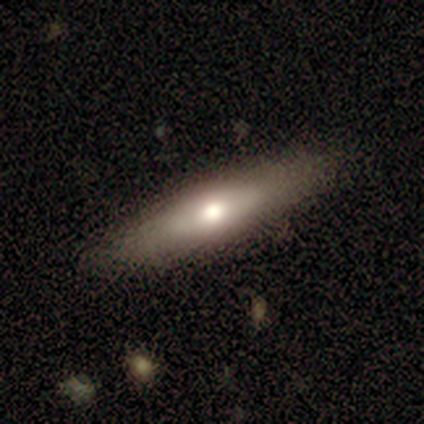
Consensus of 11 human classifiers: A featured or disk galaxy (64%) viewed edge-on (86%) with a rounded central bulge (100%). Merging: none (64%).